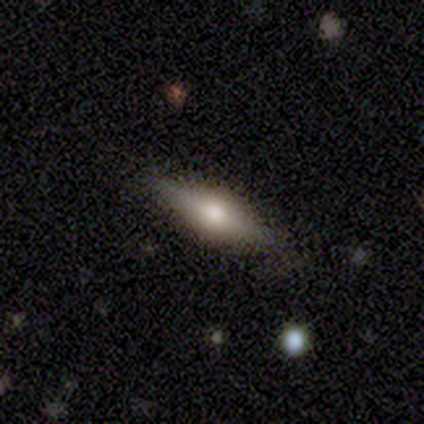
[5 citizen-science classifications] Smooth or featured?
  - smooth: 60% *
  - featured or disk: 40%
  - star or artifact: 0%
How rounded?
  - cigar-shaped: 100% *
  - round: 0%
  - in between: 0%
Merging?
  - none: 80% *
  - minor disturbance: 20%
  - major disturbance: 0%
  - merger: 0%